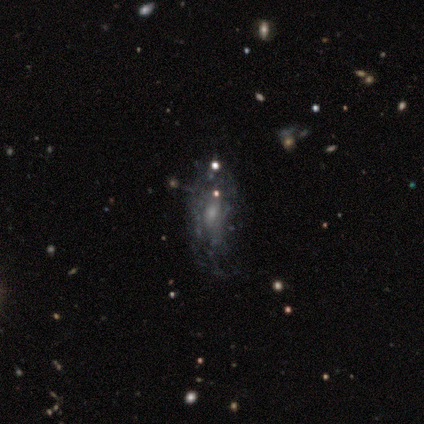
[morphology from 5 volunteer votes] Smooth or featured? featured or disk (80%)
Edge-on disk? no (100%)
Bar? no (75%)
Spiral arms? yes (50%, tied with no)
Spiral winding? tight (100%)
Spiral arm count? 2 (50%, tied with can't tell)
Bulge size? moderate (50%)
Merging? minor disturbance (75%)